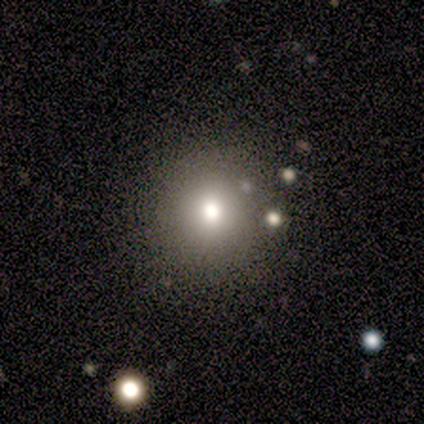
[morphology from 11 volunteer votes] This is possibly a smooth galaxy (45%). How rounded: clearly round (100%). Merging: clearly none (100%).